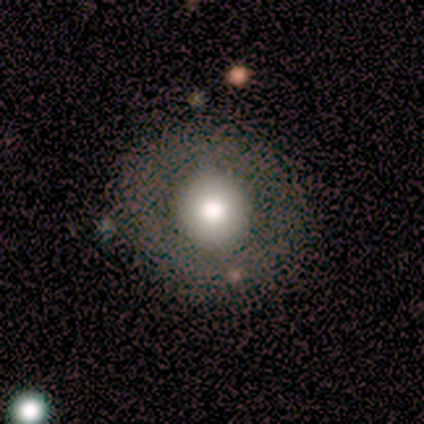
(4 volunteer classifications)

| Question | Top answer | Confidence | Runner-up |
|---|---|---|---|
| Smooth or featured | smooth | 75% | featured or disk (25%) |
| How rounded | round | 100% | — |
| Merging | none | 50% | tied: minor disturbance (50%) |